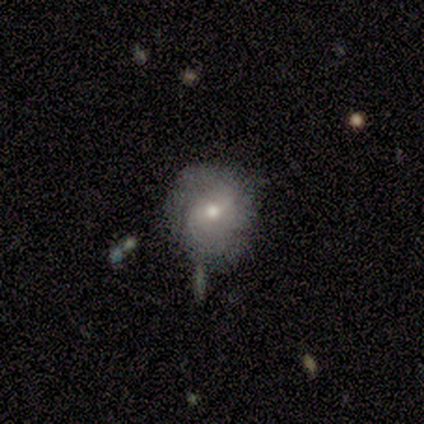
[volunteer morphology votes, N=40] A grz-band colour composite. It shows a featured or disk galaxy (45%) with a weak bar (39%), 2 (69%) medium (69%) spiral arms (72%) and a moderate central bulge (83%). Merging: none (63%).